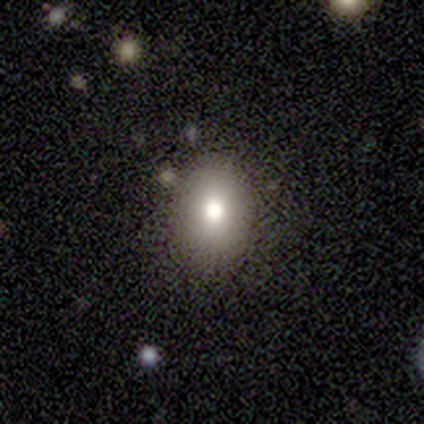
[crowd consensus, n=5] Smooth or featured? smooth (100%)
How rounded? round (60%)
Merging? none (100%)